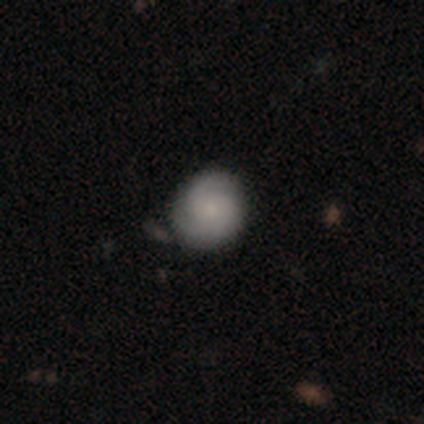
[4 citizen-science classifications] A featured or disk galaxy (50%) with no bar (100%), 2 (50%, tied with 3) tight (50%, tied with medium) spiral arms (100%) and a small central bulge (100%).

Vote fractions:
- Smooth or featured? featured or disk: 50% / smooth: 25% / star or artifact: 25%
- Edge-on disk? no: 100% / yes: 0%
- Bar? no: 100% / strong: 0% / weak: 0%
- Spiral arms? yes: 100% / no: 0%
- Spiral winding? tight: 50% (tied) / medium: 50% (tied) / loose: 0%
- Spiral arm count? 2: 50% (tied) / 3: 50% (tied) / 1: 0% / 4: 0% / more than 4: 0% / can't tell: 0%
- Bulge size? small: 100% / dominant: 0% / large: 0% / moderate: 0% / none: 0%
- Merging? none: 67% / minor disturbance: 33% / major disturbance: 0% / merger: 0%